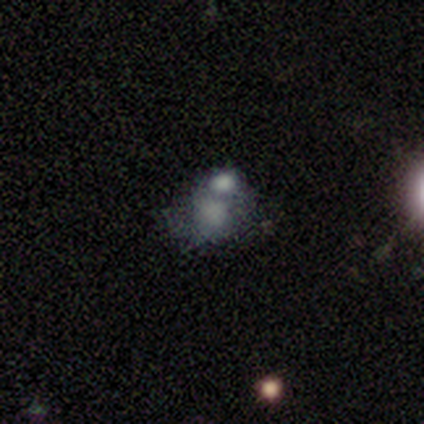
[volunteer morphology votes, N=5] Volunteers were most divided on "smooth or featured" (2-way tie): smooth: 40%, featured or disk: 40%, star or artifact: 20%; "how rounded" (2-way tie): round: 50%, in between: 50%, cigar-shaped: 0%. More confident: merging — merger (100%).